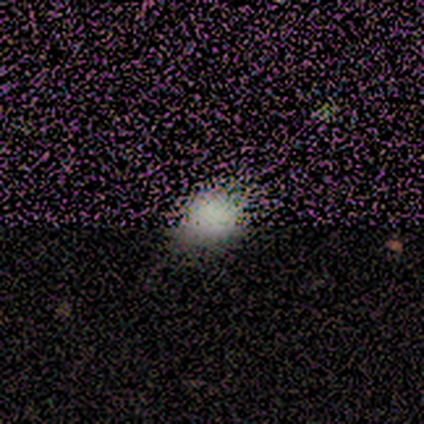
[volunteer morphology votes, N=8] type=smooth (75%); roundness=in between (67%); merging=none (83%).